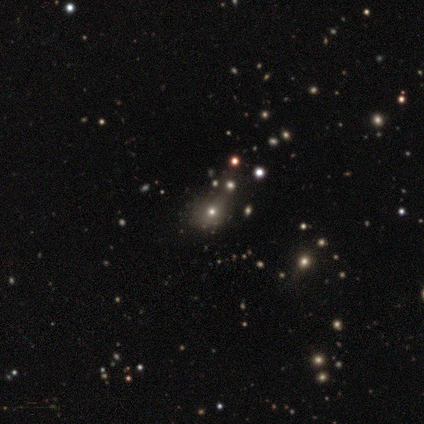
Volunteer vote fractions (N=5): Morphology: type=featured or disk (40%, tied with star or artifact); edge-on=no (100%); bar=no (100%); spiral arms=no (100%); bulge=moderate (50%, tied with small); merging=minor disturbance (67%).